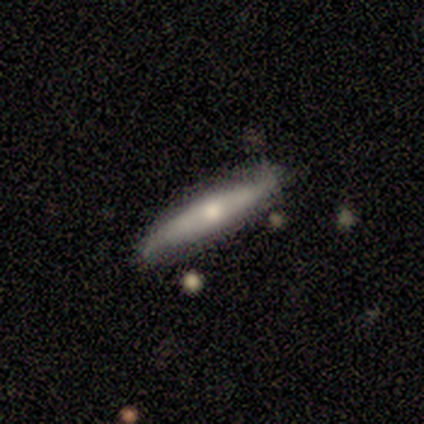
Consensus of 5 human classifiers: This is clearly a featured or disk galaxy (80%). It is clearly viewed edge-on (100%). Edge-on bulge: clearly rounded (100%). Merging: clearly none (80%).